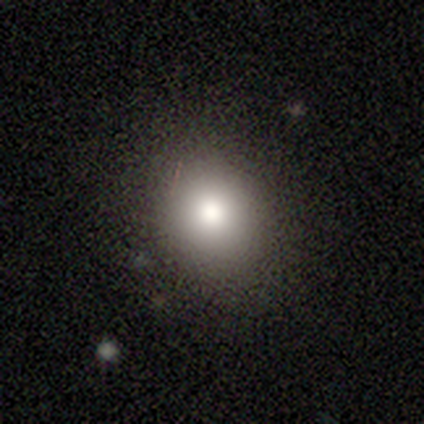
smooth-or-featured: smooth: 79% | featured or disk: 10% | star or artifact: 10%
  how-rounded: round: 84% | in between: 16% | cigar-shaped: 0%
  merging: none: 94% | minor disturbance: 3% | major disturbance: 3% | merger: 0%